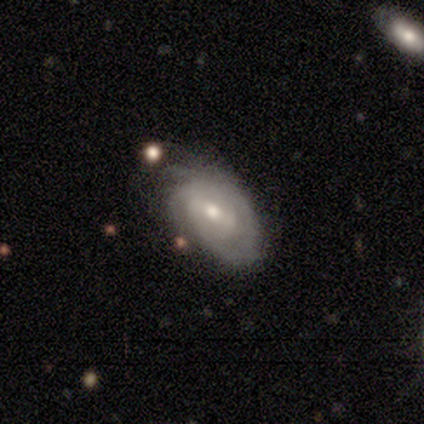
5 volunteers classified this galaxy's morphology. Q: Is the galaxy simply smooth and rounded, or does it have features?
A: featured or disk — 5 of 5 (100%).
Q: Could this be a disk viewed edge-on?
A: no — 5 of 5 (100%).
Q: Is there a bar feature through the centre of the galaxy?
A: no — 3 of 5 (60%).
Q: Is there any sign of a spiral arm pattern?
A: yes — 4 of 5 (80%).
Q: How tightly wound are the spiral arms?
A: tight — 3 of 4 (75%).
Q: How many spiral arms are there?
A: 2 — 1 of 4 (25%, tied with 3, 4 and can't tell).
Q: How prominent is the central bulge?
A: small — 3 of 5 (60%).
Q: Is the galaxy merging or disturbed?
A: none — 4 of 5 (80%).